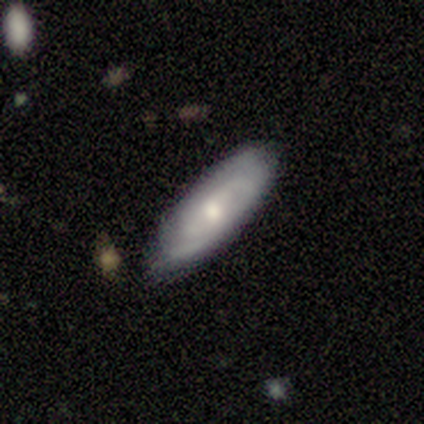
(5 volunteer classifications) Smooth or featured?
  - smooth: 60% *
  - featured or disk: 40%
  - star or artifact: 0%
How rounded?
  - in between: 100% *
  - round: 0%
  - cigar-shaped: 0%
Merging?
  - none: 60% *
  - minor disturbance: 40%
  - major disturbance: 0%
  - merger: 0%